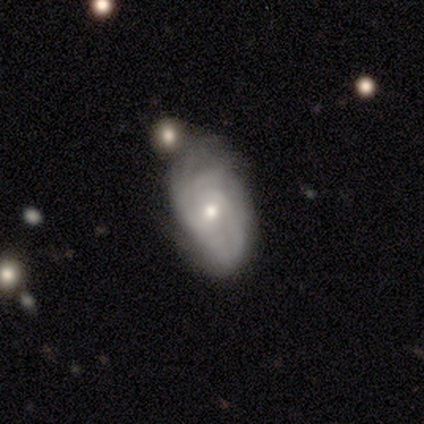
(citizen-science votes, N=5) smooth_or_featured: featured or disk (p=0.80) [alt: smooth p=0.20]
disk_edge_on: no (p=1.00)
bar: weak (p=0.50) [tied with: no p=0.50]
has_spiral_arms: yes (p=1.00)
spiral_winding: tight (p=1.00)
spiral_arm_count: can't tell (p=0.50) [alt: 3 p=0.25]
bulge_size: small (p=0.75) [alt: moderate p=0.25]
merging: none (p=0.40) [tied with: major disturbance p=0.40]